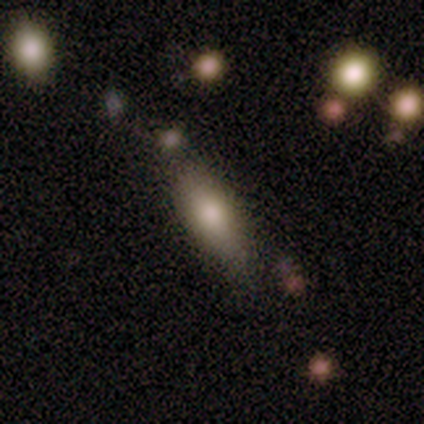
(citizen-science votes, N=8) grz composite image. It shows a smooth galaxy with no disk features (100%) that is in between round and cigar-shaped (62%). Merging: none (50%).